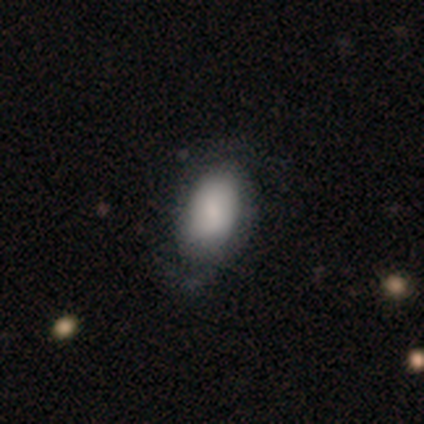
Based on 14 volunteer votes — Smooth or featured?
  - featured or disk: 64% *
  - smooth: 36%
  - star or artifact: 0%
Edge-on disk?
  - no: 100% *
  - yes: 0%
Bar?
  - no: 56% *
  - weak: 44%
  - strong: 0%
Spiral arms?
  - yes: 78% *
  - no: 22%
Spiral winding?
  - loose: 57% *
  - medium: 29%
  - tight: 14%
Spiral arm count?
  - 2: 86% *
  - 1: 14%
  - 3: 0%
  - 4: 0%
  - more than 4: 0%
  - can't tell: 0%
Bulge size?
  - small: 44% *
  - dominant: 33%
  - large: 11%
  - moderate: 11%
  - none: 0%
Merging?
  - minor disturbance: 50% *
  - major disturbance: 29%
  - none: 21%
  - merger: 0%